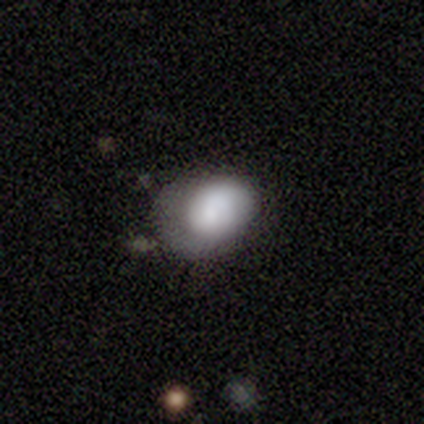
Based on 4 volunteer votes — Q: Smooth or featured?
A: smooth (75%); runner-up: featured or disk (25%)
Q: How rounded?
A: in between (67%); runner-up: round (33%)
Q: Merging?
A: none (50%); tied with: minor disturbance (50%)